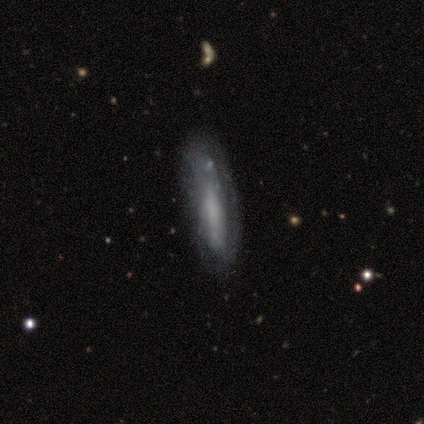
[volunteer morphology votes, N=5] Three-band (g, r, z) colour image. It shows a featured or disk galaxy (80%) with no bar (75%), no spiral arms (100%) and no central bulge (75%). Merging: none (40%).